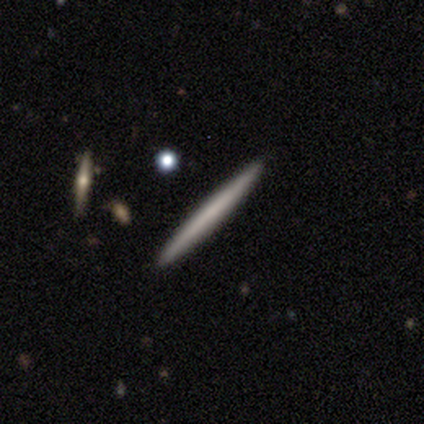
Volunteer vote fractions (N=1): This is clearly a featured or disk galaxy (100%). It is clearly viewed edge-on (100%). Edge-on bulge: clearly none (100%). Merging: clearly merger (100%).